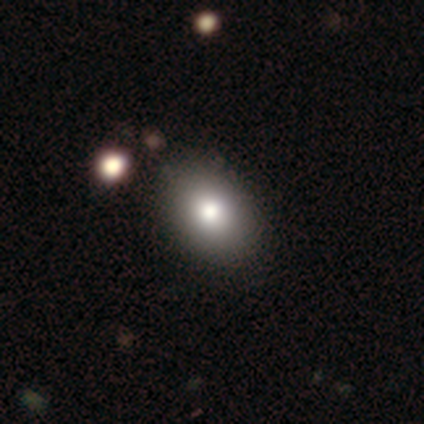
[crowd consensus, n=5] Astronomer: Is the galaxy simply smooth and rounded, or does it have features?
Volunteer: smooth — 80%.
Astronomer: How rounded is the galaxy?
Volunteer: in between — 100%.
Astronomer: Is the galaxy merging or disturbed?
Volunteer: none — 80%.